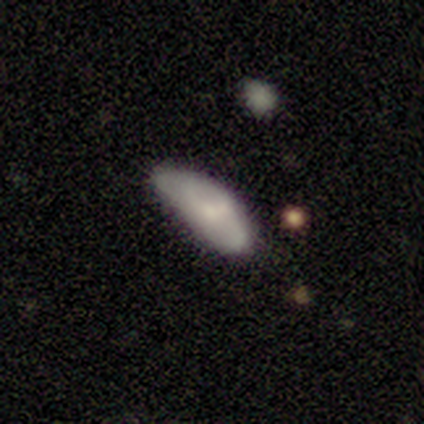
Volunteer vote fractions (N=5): Smooth or featured?
  - smooth: 100% *
  - featured or disk: 0%
  - star or artifact: 0%
How rounded?
  - in between: 80% *
  - cigar-shaped: 20%
  - round: 0%
Merging?
  - minor disturbance: 40% * (tied)
  - major disturbance: 40% * (tied)
  - none: 20%
  - merger: 0%